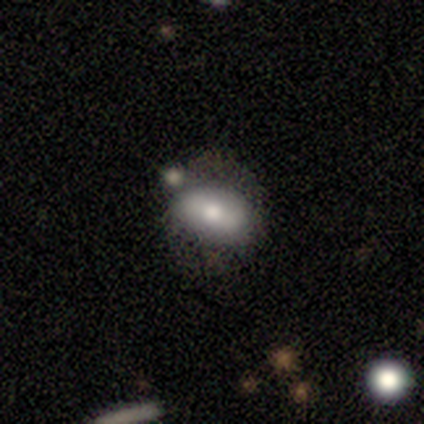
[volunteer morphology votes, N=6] Smooth or featured? smooth (83%)
How rounded? in between (80%)
Merging? none (50%)